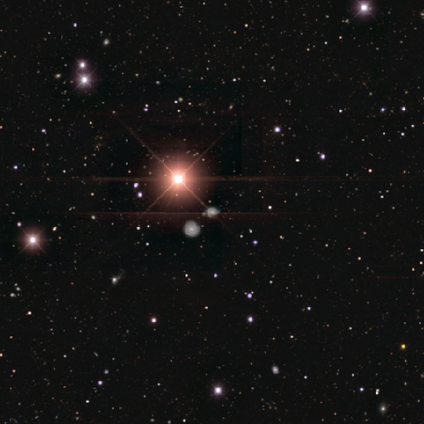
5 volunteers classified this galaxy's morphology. Q: Smooth or featured?
A: star or artifact (80%); runner-up: featured or disk (20%)